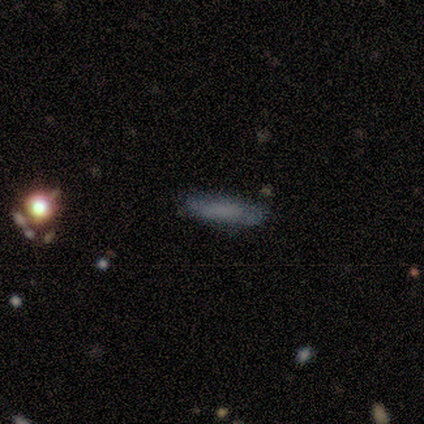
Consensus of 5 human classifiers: smooth 100%, featured or disk 0%, star or artifact 0%. Down the decision tree: how rounded — cigar-shaped (100%); merging — none (100%).